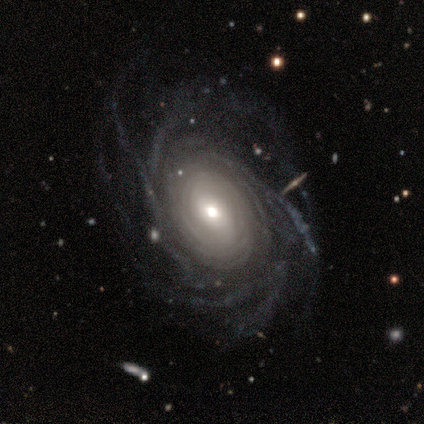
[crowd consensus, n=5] smooth-or-featured: featured or disk: 100% | smooth: 0% | star or artifact: 0%
  disk-edge-on: no: 100% | yes: 0%
    bar: weak: 60% | no: 40% | strong: 0%
    has-spiral-arms: yes: 100% | no: 0%
      spiral-winding: tight: 80% | medium: 20% | loose: 0%
      spiral-arm-count: more than 4: 60% | 4: 20% | can't tell: 20% | 1: 0% | 2: 0% | 3: 0%
    bulge-size: moderate: 60% | large: 20% | small: 20% | dominant: 0% | none: 0%
  merging: minor disturbance: 60% | major disturbance: 40% | none: 0% | merger: 0%